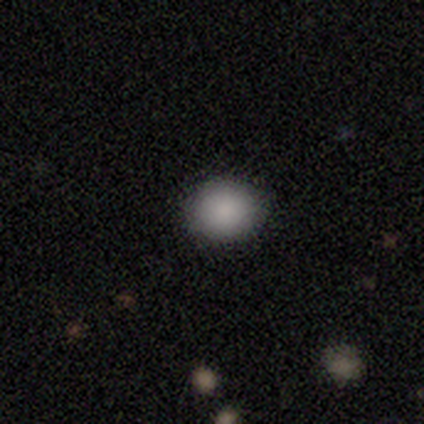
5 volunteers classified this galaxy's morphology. Smooth or featured? smooth (100%)
How rounded? in between (60%)
Merging? none (100%)